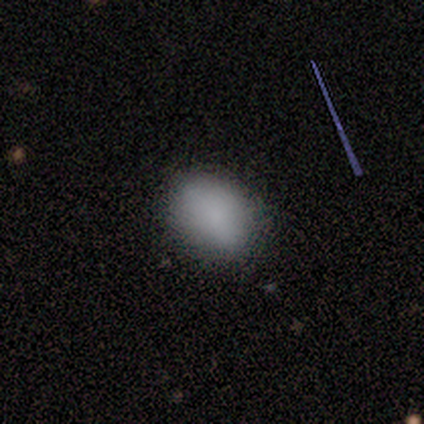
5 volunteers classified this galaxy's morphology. A smooth galaxy with no disk features (60%) that is in between round and cigar-shaped (67%).

Vote fractions:
- Smooth or featured? smooth: 60% / star or artifact: 40% / featured or disk: 0%
- How rounded? in between: 67% / round: 33% / cigar-shaped: 0%
- Merging? none: 100% / minor disturbance: 0% / major disturbance: 0% / merger: 0%